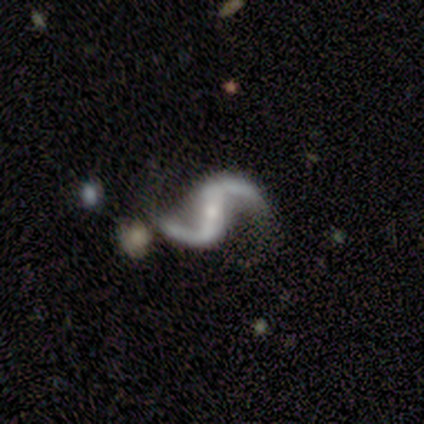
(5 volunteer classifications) This is clearly a featured or disk galaxy (100%). It is clearly not viewed edge-on (100%). Bar: clearly strong (100%). Spiral arm pattern: clearly yes (100%). Spiral arm count: clearly 2 (100%). Spiral winding: clearly loose (100%). Central bulge: clearly small (80%). Merging: clearly none (100%).